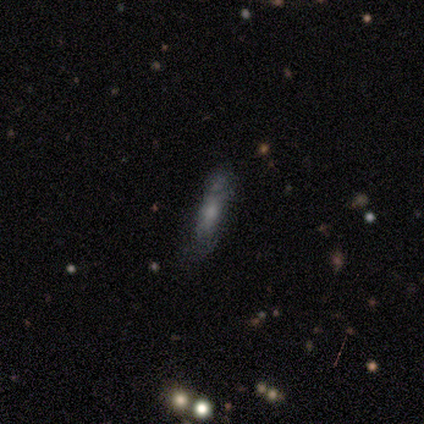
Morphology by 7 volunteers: smooth 86%, star or artifact 14%, featured or disk 0%. Down the decision tree: how rounded — cigar-shaped (67%); merging — none (50%).